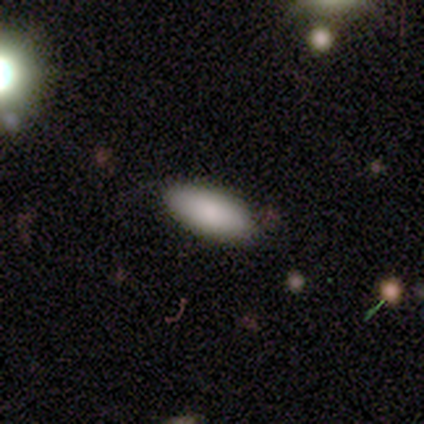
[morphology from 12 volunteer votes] This appears to be a smooth galaxy with no disk features (92%) that is in between round and cigar-shaped (100%). Merging: none (100%).